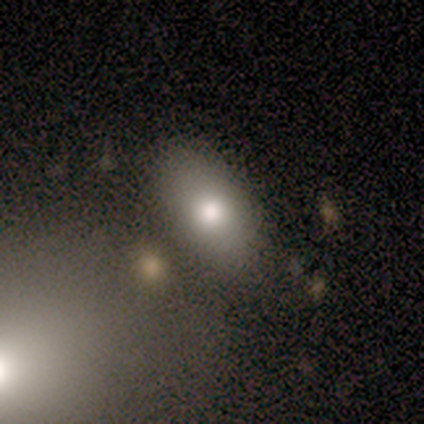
Overall: featured or disk (60%; smooth 40%). Edge-on disk: no (100%). Bar: no (100%). Spiral arms: no (100%). Bulge size: large (33%, tied with moderate and none). Merging: none (100%).